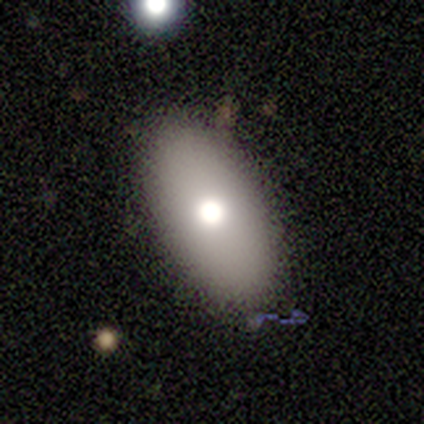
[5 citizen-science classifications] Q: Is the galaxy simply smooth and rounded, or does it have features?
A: smooth — 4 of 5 (80%).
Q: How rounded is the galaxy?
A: in between — 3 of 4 (75%).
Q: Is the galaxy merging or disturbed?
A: none — 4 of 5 (80%).